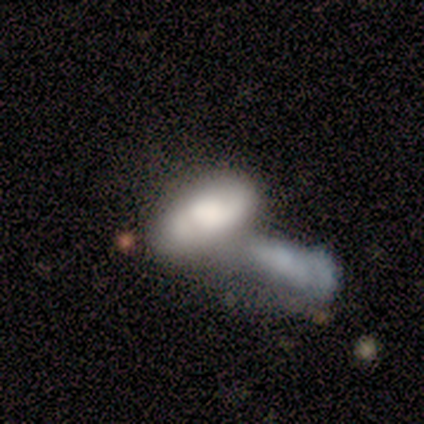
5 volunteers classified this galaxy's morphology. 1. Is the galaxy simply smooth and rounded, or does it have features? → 100% smooth, 0% featured or disk, 0% star or artifact.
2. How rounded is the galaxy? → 100% in between, 0% round, 0% cigar-shaped.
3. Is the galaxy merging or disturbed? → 80% merger, 20% major disturbance, 0% none, 0% minor disturbance.